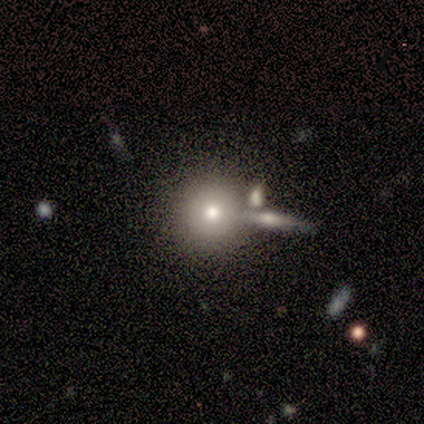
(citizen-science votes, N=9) Overall: smooth (89%). How rounded: round (75%). Merging: none (62%; merger 25%).